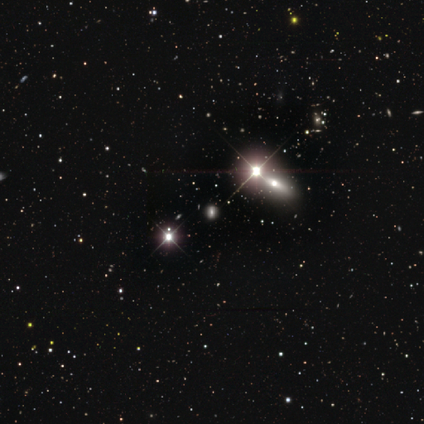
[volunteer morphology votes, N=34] Smooth or featured? star or artifact (76%)